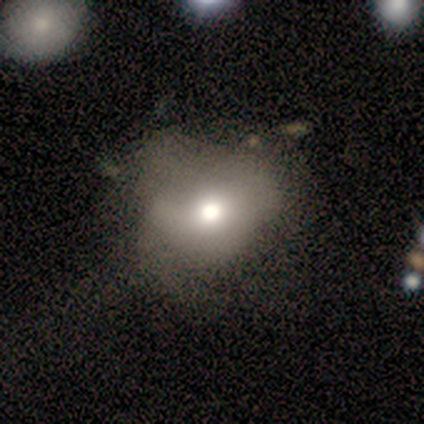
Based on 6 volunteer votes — Overall: star or artifact (50%; featured or disk 33%).